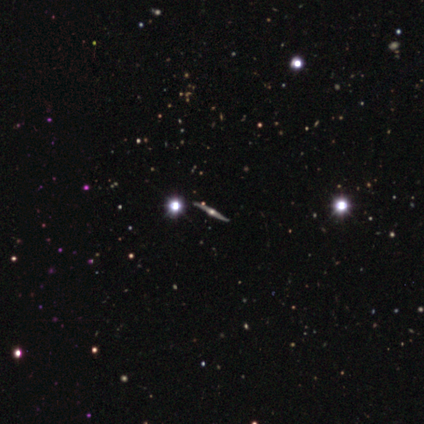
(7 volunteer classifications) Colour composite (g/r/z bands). It shows a featured or disk galaxy (86%) viewed edge-on (100%) with a rounded central bulge (100%). Merging: none (71%).